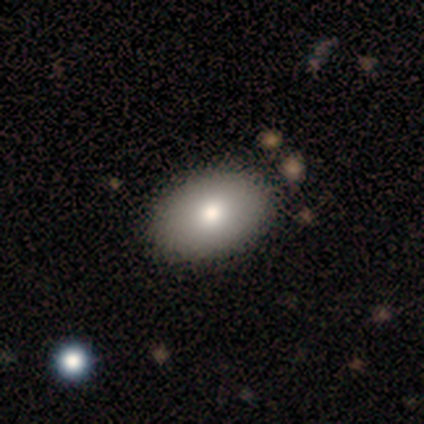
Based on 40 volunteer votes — This is clearly a smooth galaxy (85%). How rounded: clearly in between (91%). Merging: likely none (62%).